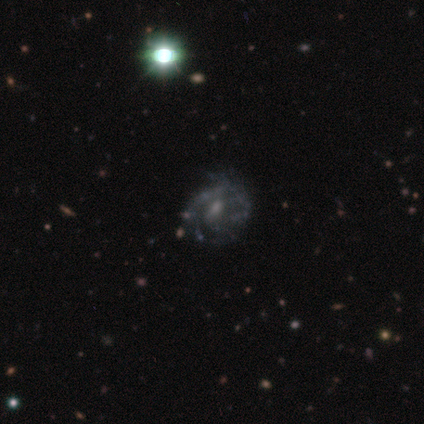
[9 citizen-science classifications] Volunteers were most divided on "bar": weak: 57%, no: 43%, strong: 0%. More confident: edge-on disk — no (100%); bulge size — small (100%); smooth or featured — featured or disk (78%); spiral arms — yes (71%); merging — minor disturbance (62%); spiral winding — medium (60%); spiral arm count — 2 (60%).